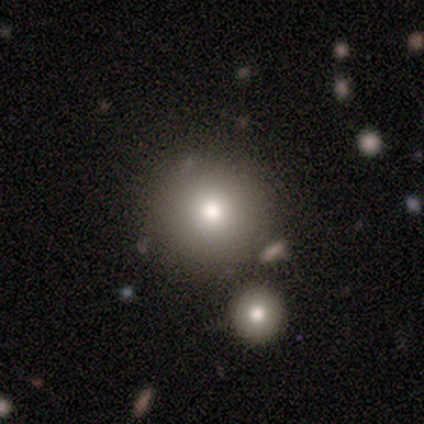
Q: Smooth or featured?
A: smooth (86%); runner-up: star or artifact (14%)
Q: How rounded?
A: round (100%)
Q: Merging?
A: none (67%); runner-up: minor disturbance (17%)